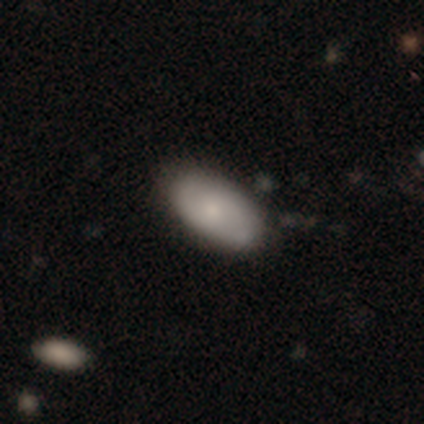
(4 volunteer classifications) Q: Smooth or featured?
A: smooth (50%); tied with: featured or disk (50%)
Q: How rounded?
A: in between (100%)
Q: Merging?
A: none (100%)